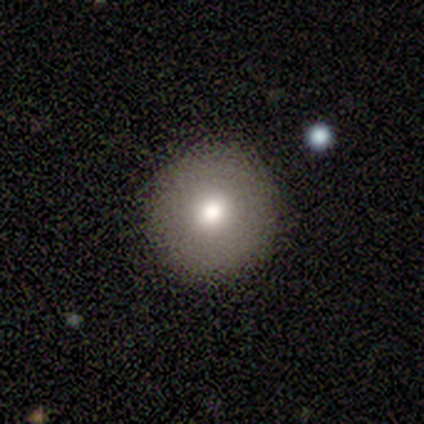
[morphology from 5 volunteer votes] smooth-or-featured: smooth: 80% | featured or disk: 20% | star or artifact: 0%
  how-rounded: round: 100% | in between: 0% | cigar-shaped: 0%
  merging: none: 80% | merger: 20% | minor disturbance: 0% | major disturbance: 0%